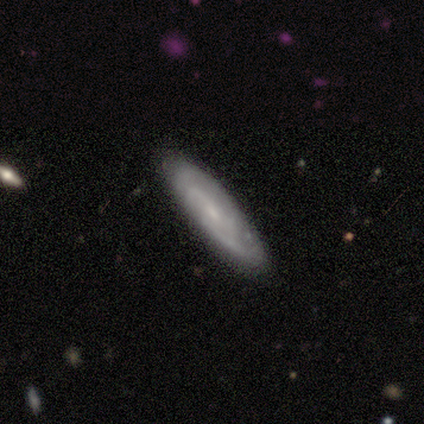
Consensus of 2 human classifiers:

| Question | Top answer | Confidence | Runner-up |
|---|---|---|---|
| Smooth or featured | featured or disk | 100% | — |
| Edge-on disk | no | 100% | — |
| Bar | no | 100% | — |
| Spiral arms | yes | 100% | — |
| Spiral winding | loose | 100% | — |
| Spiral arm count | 1 | 50% | tied: can't tell (50%) |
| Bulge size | small | 50% | tied: none (50%) |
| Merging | none | 100% | — |